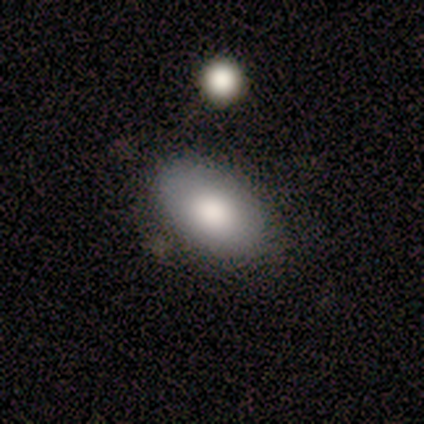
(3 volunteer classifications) smooth 100%, featured or disk 0%, star or artifact 0%. Down the decision tree: how rounded — in between (100%); merging — none (100%).